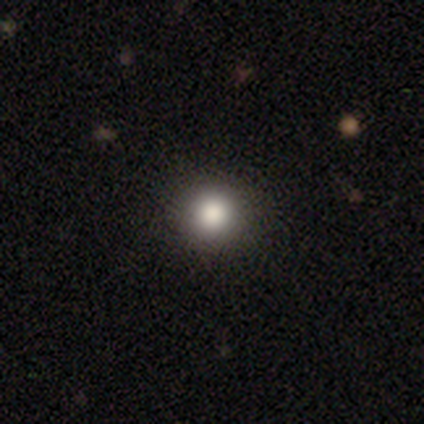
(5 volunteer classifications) Morphology: type=smooth (100%); roundness=round (100%); merging=none (100%).